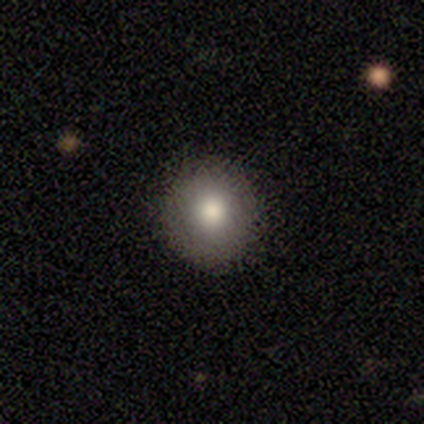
Overall: smooth (67%; featured or disk 33%). How rounded: round (100%). Merging: none (100%).